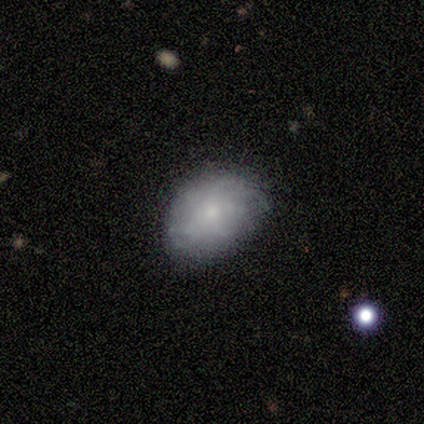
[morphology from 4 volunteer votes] Smooth or featured?
  - smooth: 75% *
  - featured or disk: 25%
  - star or artifact: 0%
How rounded?
  - in between: 100% *
  - round: 0%
  - cigar-shaped: 0%
Merging?
  - none: 50% * (tied)
  - minor disturbance: 50% * (tied)
  - major disturbance: 0%
  - merger: 0%